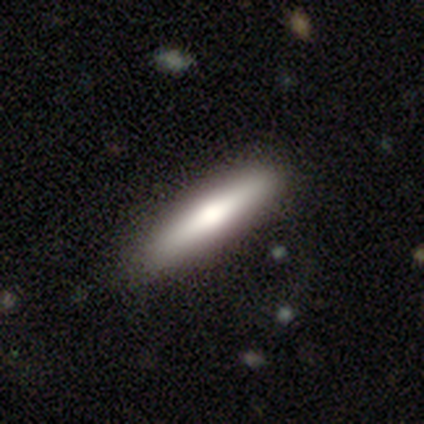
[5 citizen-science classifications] Morphology: type=featured or disk (60%); edge-on=yes (100%); edge-on bulge=rounded (100%); merging=none (100%).